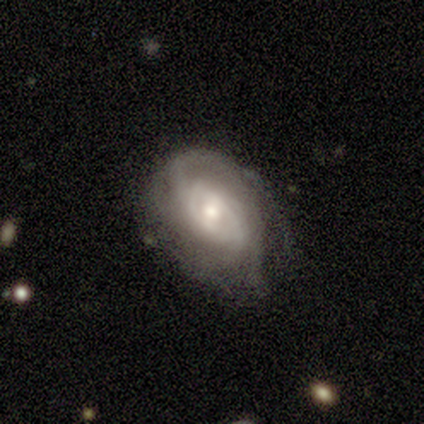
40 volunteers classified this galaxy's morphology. featured or disk 90%, smooth 8%, star or artifact 2%. Down the decision tree: edge-on disk — no (100%); bar — weak (50%); spiral arms — yes (89%); spiral arm count — can't tell (50%); spiral winding — tight (44%); bulge size — moderate (50%); merging — none (54%).